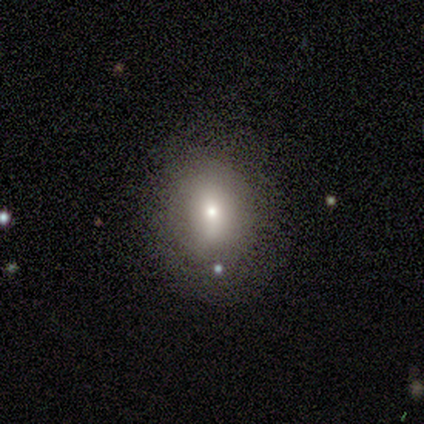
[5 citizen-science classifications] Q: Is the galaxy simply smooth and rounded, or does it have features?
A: smooth — 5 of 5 (100%).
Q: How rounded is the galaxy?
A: in between — 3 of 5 (60%).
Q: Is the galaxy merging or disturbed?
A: none — 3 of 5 (60%).